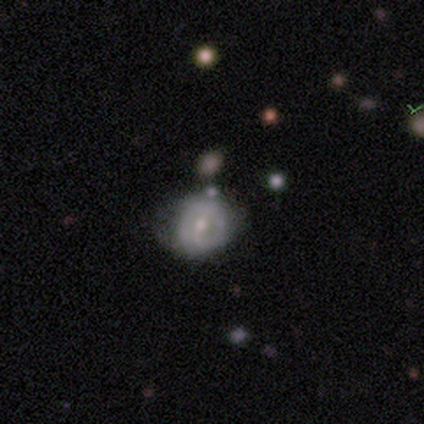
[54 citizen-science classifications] Q: Smooth or featured?
A: featured or disk (57%); runner-up: smooth (39%)
Q: Edge-on disk?
A: no (97%); runner-up: yes (3%)
Q: Bar?
A: weak (40%); runner-up: no (33%)
Q: Spiral arms?
A: yes (60%); runner-up: no (40%)
Q: Spiral winding?
A: tight (67%); runner-up: medium (22%)
Q: Spiral arm count?
A: 2 (56%); runner-up: can't tell (33%)
Q: Bulge size?
A: moderate (63%); runner-up: small (33%)
Q: Merging?
A: none (56%); runner-up: minor disturbance (27%)